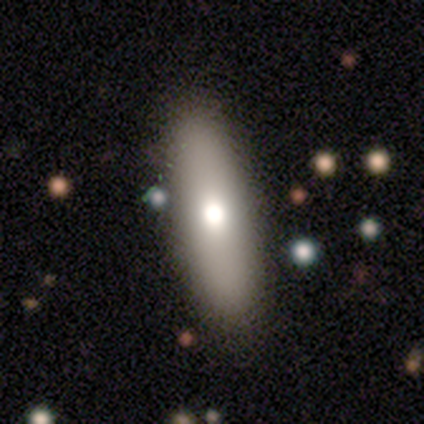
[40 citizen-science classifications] Smooth or featured? 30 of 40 (75%) said smooth. How rounded? 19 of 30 (63%) said in between. Merging? 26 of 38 (68%) said none.